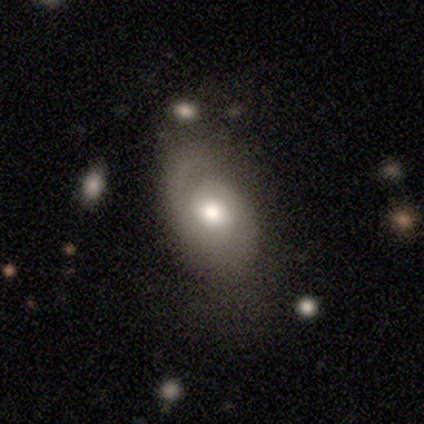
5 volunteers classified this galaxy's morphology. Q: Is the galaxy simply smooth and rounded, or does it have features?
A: featured or disk — 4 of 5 (80%).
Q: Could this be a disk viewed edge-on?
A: no — 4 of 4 (100%).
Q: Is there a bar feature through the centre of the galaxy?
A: no — 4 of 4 (100%).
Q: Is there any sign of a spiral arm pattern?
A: yes — 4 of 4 (100%).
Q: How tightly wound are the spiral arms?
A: loose — 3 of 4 (75%).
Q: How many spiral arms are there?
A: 2 — 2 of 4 (50%).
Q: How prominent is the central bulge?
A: large — 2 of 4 (50%, tied with moderate).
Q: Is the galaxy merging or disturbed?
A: none — 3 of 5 (60%).